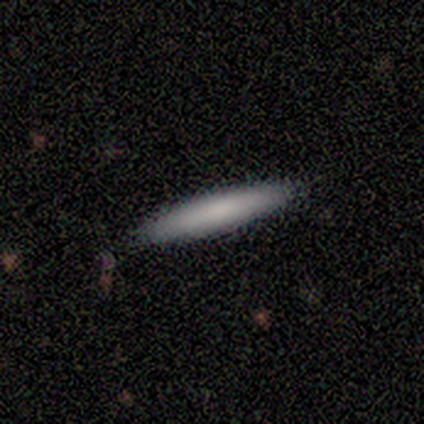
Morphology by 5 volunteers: Volunteers were most divided on "smooth or featured": smooth: 60%, featured or disk: 40%, star or artifact: 0%. More confident: how rounded — cigar-shaped (100%); merging — none (100%).